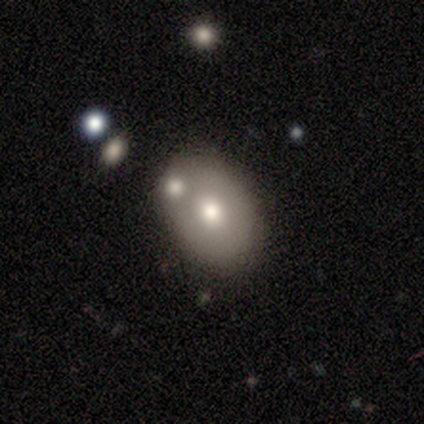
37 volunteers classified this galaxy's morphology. A smooth galaxy with no disk features (81%) that is in between round and cigar-shaped (77%).

Vote fractions:
- Smooth or featured? smooth: 81% / featured or disk: 16% / star or artifact: 3%
- How rounded? in between: 77% / round: 23% / cigar-shaped: 0%
- Merging? merger: 58% / none: 0% / minor disturbance: 0% / major disturbance: 0%